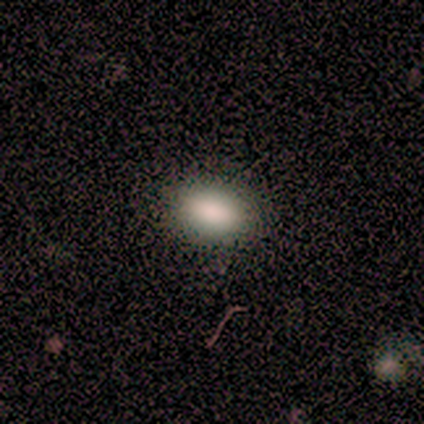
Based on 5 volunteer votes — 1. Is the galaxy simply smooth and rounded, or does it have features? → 100% smooth, 0% featured or disk, 0% star or artifact.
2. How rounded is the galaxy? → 100% in between, 0% round, 0% cigar-shaped.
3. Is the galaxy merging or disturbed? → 80% none, 20% minor disturbance, 0% major disturbance, 0% merger.